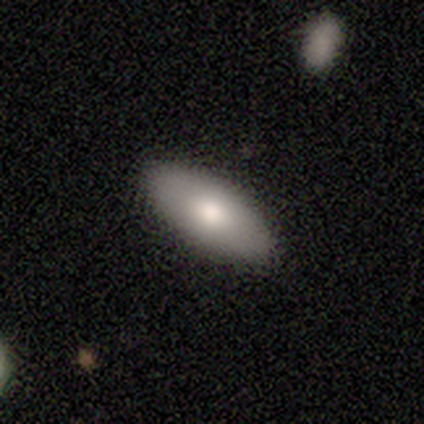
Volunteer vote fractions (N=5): Smooth or featured: smooth — 80% (featured or disk — 20%)
How rounded: in between — 100%
Merging: none — 80% (minor disturbance — 20%)